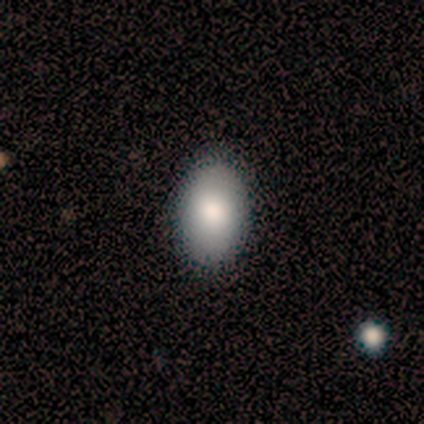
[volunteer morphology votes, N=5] Smooth or featured? smooth (60%)
How rounded? in between (100%)
Merging? none (100%)